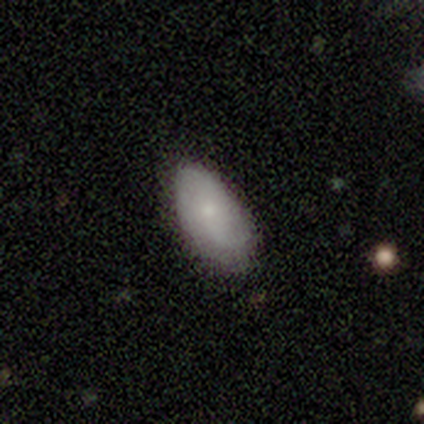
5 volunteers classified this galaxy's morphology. A smooth galaxy with no disk features (100%) that is in between round and cigar-shaped (100%). Merging: none (60%).